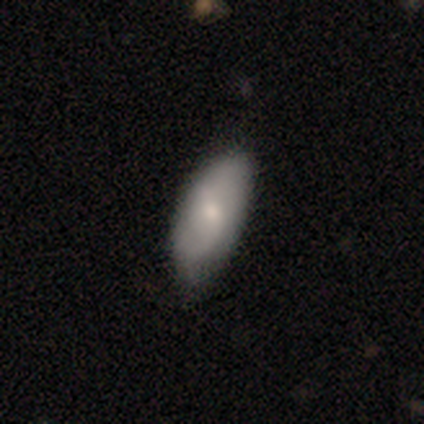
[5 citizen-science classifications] smooth_or_featured: smooth (p=0.60) [alt: featured or disk p=0.40]
how_rounded: in between (p=1.00)
merging: none (p=0.60) [alt: minor disturbance p=0.40]